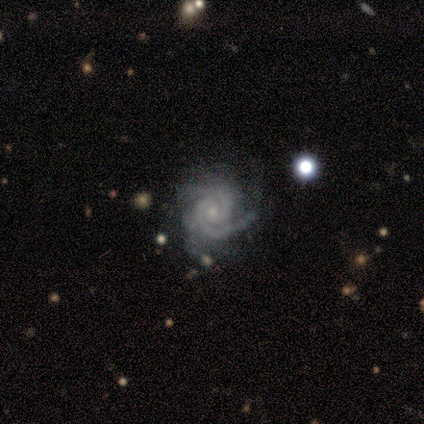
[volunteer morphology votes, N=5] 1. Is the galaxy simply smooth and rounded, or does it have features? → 100% featured or disk, 0% smooth, 0% star or artifact.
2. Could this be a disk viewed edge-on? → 100% no, 0% yes.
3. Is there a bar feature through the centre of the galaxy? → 60% no, 20% strong, 20% weak.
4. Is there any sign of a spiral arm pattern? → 100% yes, 0% no.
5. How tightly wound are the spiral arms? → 100% tight, 0% medium, 0% loose.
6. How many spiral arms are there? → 80% 2, 20% can't tell, 0% 1, 0% 3, 0% 4, 0% more than 4.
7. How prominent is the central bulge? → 80% small, 20% moderate, 0% dominant, 0% large, 0% none.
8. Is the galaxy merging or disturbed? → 100% none, 0% minor disturbance, 0% major disturbance, 0% merger.